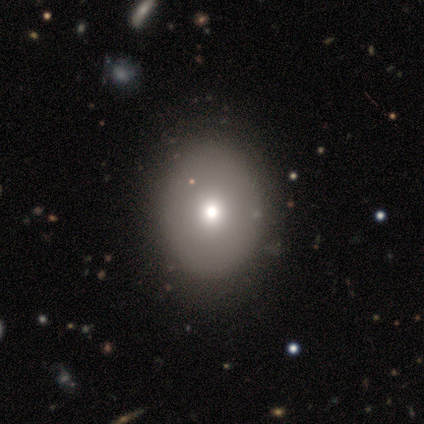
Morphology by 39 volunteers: Smooth or featured? smooth (67%)
How rounded? in between (65%)
Merging? none (58%)